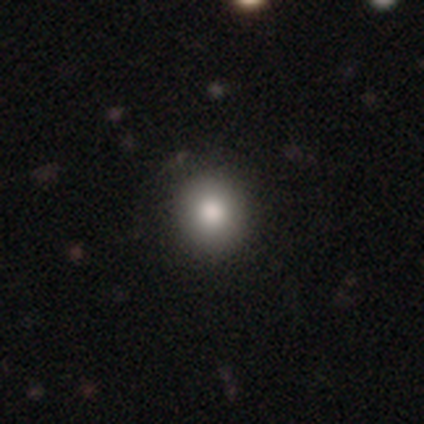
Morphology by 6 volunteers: type=smooth (83%); roundness=round (80%); merging=none (100%).